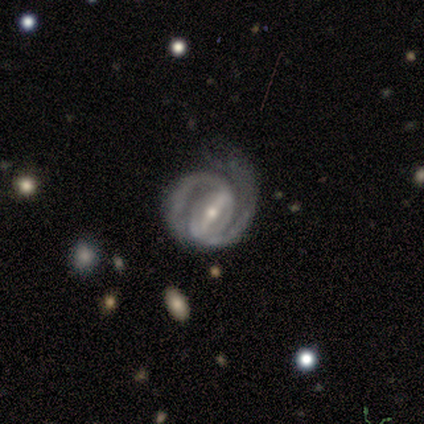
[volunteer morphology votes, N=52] Q: Smooth or featured?
A: featured or disk (90%); runner-up: star or artifact (6%)
Q: Edge-on disk?
A: no (98%); runner-up: yes (2%)
Q: Bar?
A: strong (85%); runner-up: weak (11%)
Q: Spiral arms?
A: yes (100%)
Q: Spiral winding?
A: tight (65%); runner-up: medium (30%)
Q: Spiral arm count?
A: 2 (96%); runner-up: 3 (2%)
Q: Bulge size?
A: small (59%); runner-up: moderate (37%)
Q: Merging?
A: none (45%); runner-up: minor disturbance (33%)